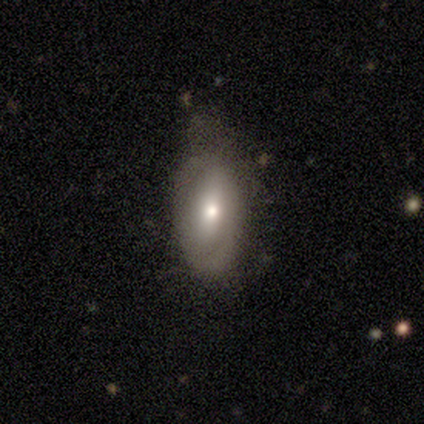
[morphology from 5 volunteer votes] Q: Smooth or featured?
A: featured or disk (80%); runner-up: smooth (20%)
Q: Edge-on disk?
A: no (75%); runner-up: yes (25%)
Q: Bar?
A: weak (67%); runner-up: no (33%)
Q: Spiral arms?
A: no (67%); runner-up: yes (33%)
Q: Bulge size?
A: moderate (67%); runner-up: small (33%)
Q: Merging?
A: minor disturbance (80%); runner-up: major disturbance (20%)